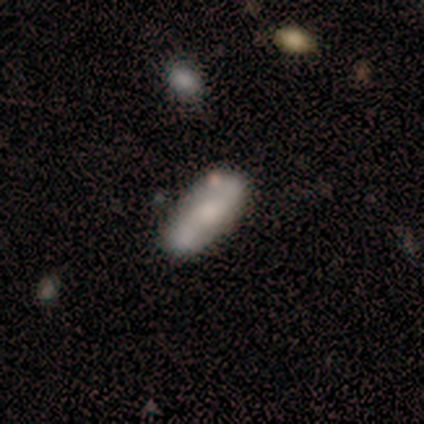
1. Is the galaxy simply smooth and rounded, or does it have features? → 50% featured or disk, 33% smooth, 17% star or artifact.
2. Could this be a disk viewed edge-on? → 67% no, 33% yes.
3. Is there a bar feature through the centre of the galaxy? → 50% strong (tied), 50% no (tied), 0% weak.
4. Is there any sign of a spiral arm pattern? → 50% yes (tied), 50% no (tied).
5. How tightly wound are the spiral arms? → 100% loose, 0% tight, 0% medium.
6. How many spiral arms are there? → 100% 2, 0% 1, 0% 3, 0% 4, 0% more than 4, 0% can't tell.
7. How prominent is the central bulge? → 50% small (tied), 50% none (tied), 0% dominant, 0% large, 0% moderate.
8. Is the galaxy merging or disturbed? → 80% none, 20% minor disturbance, 0% major disturbance, 0% merger.